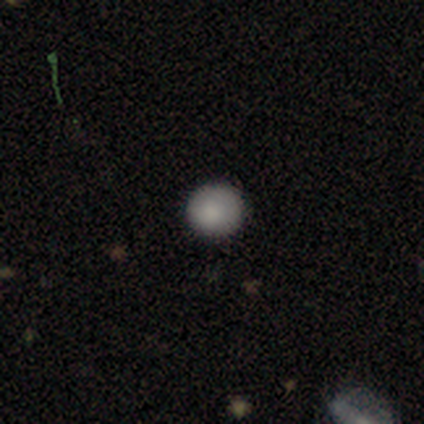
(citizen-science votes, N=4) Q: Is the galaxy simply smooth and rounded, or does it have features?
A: smooth — 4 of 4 (100%).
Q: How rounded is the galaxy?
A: round — 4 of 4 (100%).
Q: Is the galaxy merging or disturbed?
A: none — 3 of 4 (75%).